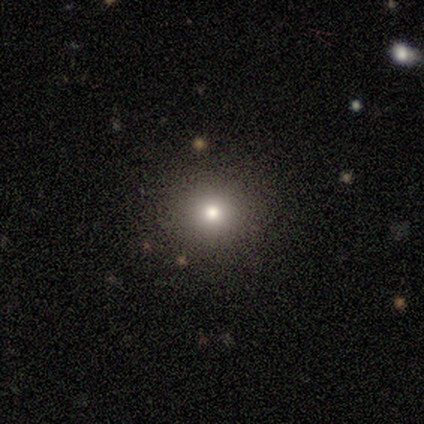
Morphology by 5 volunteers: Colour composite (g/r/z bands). It shows a smooth galaxy with no disk features (80%) that is round (100%). Merging: none (100%).